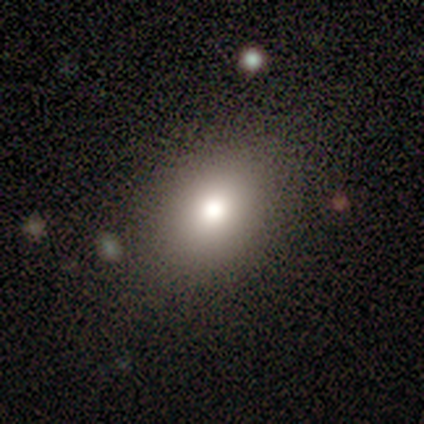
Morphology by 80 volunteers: Smooth or featured? smooth (82%)
How rounded? in between (70%)
Merging? none (46%)